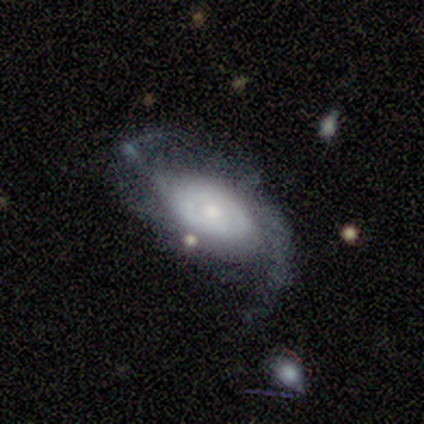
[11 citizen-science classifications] Q: Smooth or featured?
A: featured or disk (91%); runner-up: smooth (9%)
Q: Edge-on disk?
A: no (90%); runner-up: yes (10%)
Q: Bar?
A: no (100%)
Q: Spiral arms?
A: yes (89%); runner-up: no (11%)
Q: Spiral winding?
A: loose (50%); runner-up: medium (38%)
Q: Spiral arm count?
A: 2 (88%); runner-up: can't tell (12%)
Q: Bulge size?
A: moderate (78%); runner-up: dominant (11%)
Q: Merging?
A: none (55%); runner-up: major disturbance (27%)